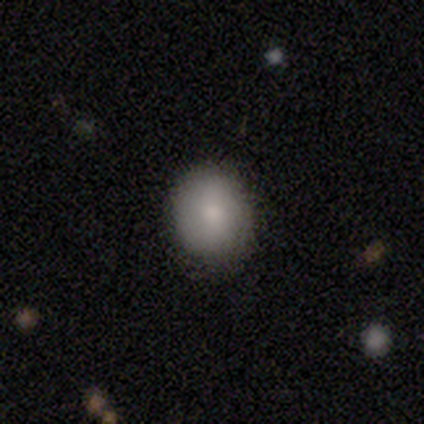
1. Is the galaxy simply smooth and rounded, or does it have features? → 88% smooth, 7% star or artifact, 5% featured or disk.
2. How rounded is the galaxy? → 70% round, 27% in between, 3% cigar-shaped.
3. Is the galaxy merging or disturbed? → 85% none, 10% minor disturbance, 5% major disturbance, 0% merger.